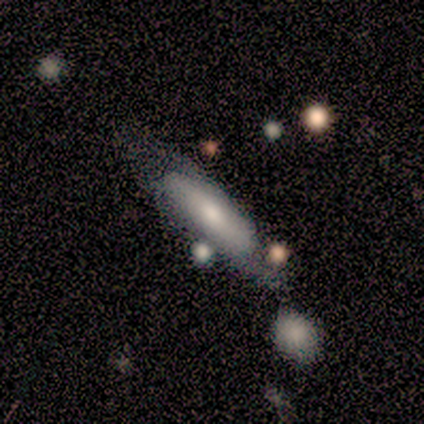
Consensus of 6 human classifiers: smooth_or_featured: smooth (p=0.50) [tied with: featured or disk p=0.50]
how_rounded: cigar-shaped (p=0.67) [alt: in between p=0.33]
merging: none (p=0.50) [alt: minor disturbance p=0.17]